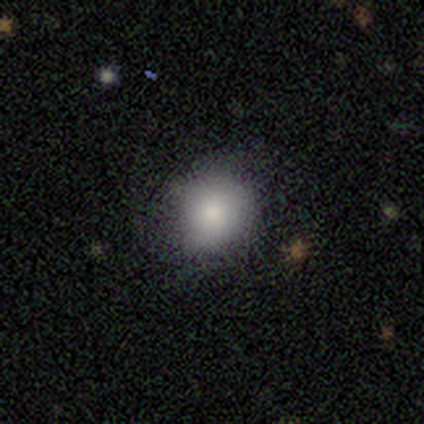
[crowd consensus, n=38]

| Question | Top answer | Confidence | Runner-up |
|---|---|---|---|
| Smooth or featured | smooth | 89% | star or artifact (8%) |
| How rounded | round | 88% | in between (9%) |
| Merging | none | 77% | minor disturbance (17%) |